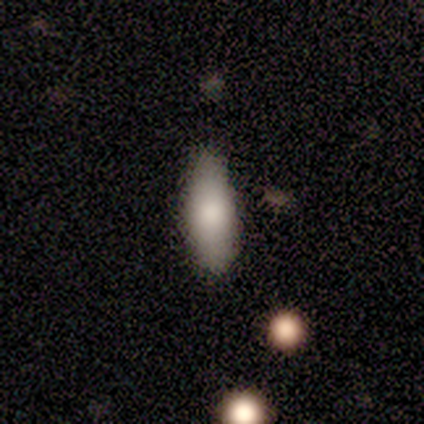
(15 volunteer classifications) Smooth or featured?
  - smooth: 87% *
  - featured or disk: 7%
  - star or artifact: 7%
How rounded?
  - in between: 85% *
  - cigar-shaped: 15%
  - round: 0%
Merging?
  - none: 93% *
  - minor disturbance: 7%
  - major disturbance: 0%
  - merger: 0%